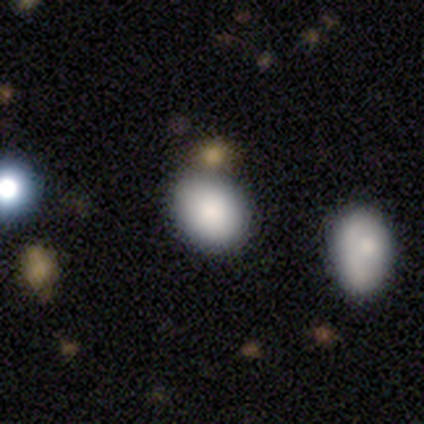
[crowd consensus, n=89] Volunteers were most divided on "how rounded": in between: 57%, round: 43%, cigar-shaped: 0%. More confident: smooth or featured — smooth (84%); merging — none (62%).